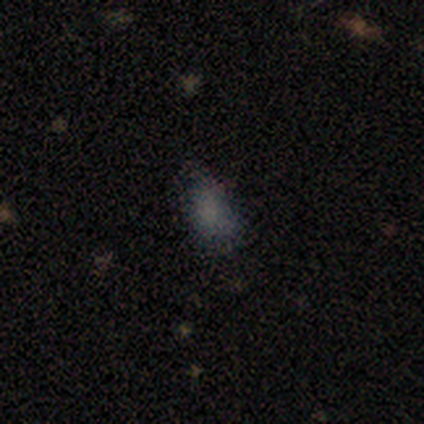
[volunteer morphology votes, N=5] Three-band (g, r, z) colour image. It shows a smooth galaxy with no disk features (80%) that is in between round and cigar-shaped (100%). Merging: none (100%).